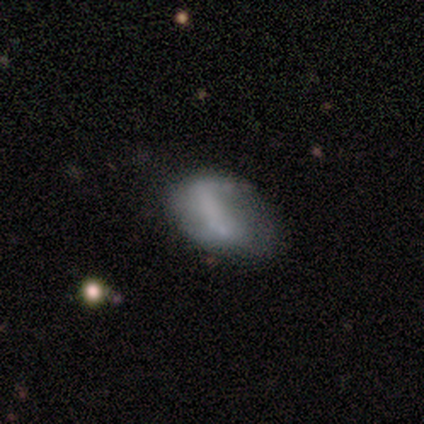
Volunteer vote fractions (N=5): Q: Smooth or featured?
A: smooth (80%); runner-up: featured or disk (20%)
Q: How rounded?
A: in between (100%)
Q: Merging?
A: none (40%); tied with: minor disturbance (40%)